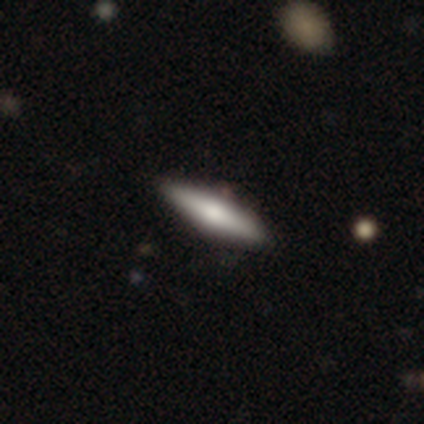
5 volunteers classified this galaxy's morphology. A smooth galaxy with no disk features (60%) that is cigar-shaped (67%).

Vote fractions:
- Smooth or featured? smooth: 60% / featured or disk: 40% / star or artifact: 0%
- How rounded? cigar-shaped: 67% / in between: 33% / round: 0%
- Merging? none: 80% / major disturbance: 20% / minor disturbance: 0% / merger: 0%